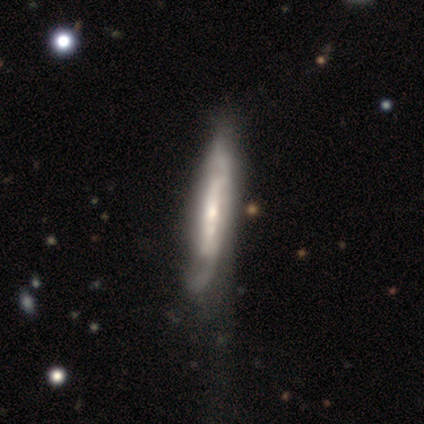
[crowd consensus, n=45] Smooth or featured?
  - featured or disk: 87% *
  - smooth: 11%
  - star or artifact: 2%
Edge-on disk?
  - yes: 54% *
  - no: 46%
Edge-on bulge?
  - rounded: 62% *
  - boxy: 19%
  - none: 19%
Merging?
  - major disturbance: 41% *
  - none: 32%
  - minor disturbance: 27%
  - merger: 0%